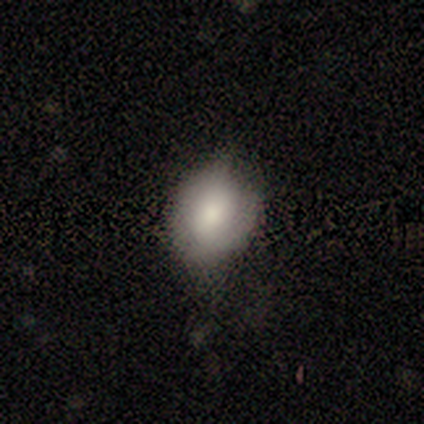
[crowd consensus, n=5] smooth-or-featured: smooth: 80% | featured or disk: 20% | star or artifact: 0%
  how-rounded: in between: 75% | round: 25% | cigar-shaped: 0%
  merging: none: 60% | minor disturbance: 20% | major disturbance: 20% | merger: 0%